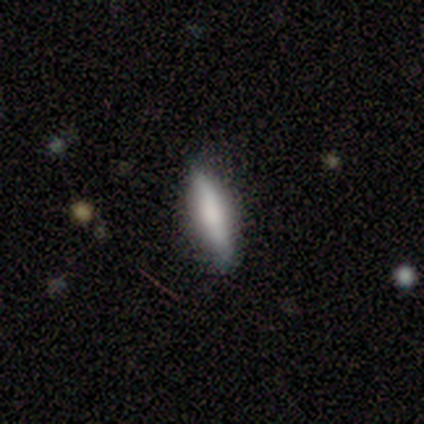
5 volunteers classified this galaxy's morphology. smooth 60%, featured or disk 40%, star or artifact 0%. Down the decision tree: how rounded — cigar-shaped (67%); merging — none (100%).